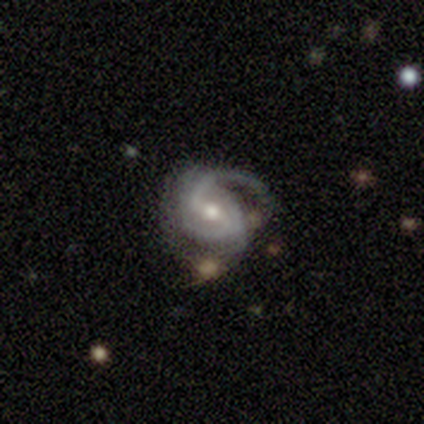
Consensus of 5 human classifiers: This appears to be a featured or disk galaxy (80%) with a weak bar (50%), 2 (75%) tight (50%, tied with medium) spiral arms (100%) and a moderate central bulge (50%). Merging: none (50%, tied with minor disturbance).